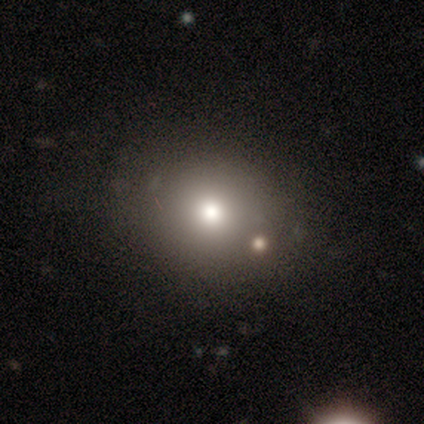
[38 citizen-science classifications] Smooth or featured? 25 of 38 (66%) said smooth. How rounded? 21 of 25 (84%) said round. Merging? 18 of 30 (60%) said none.